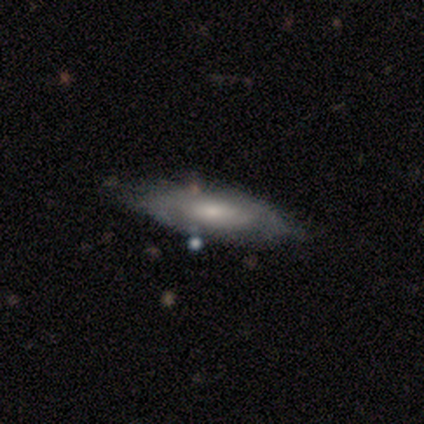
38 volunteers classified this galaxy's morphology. Smooth or featured: featured or disk — 55% (smooth — 42%)
Edge-on disk: no — 67% (yes — 33%)
Bar: weak — 50% (tied with no — 50%)
Spiral arms: yes — 57% (no — 43%)
Spiral winding: tight — 62% (medium — 38%)
Spiral arm count: can't tell — 75% (2 — 25%)
Bulge size: small — 57% (moderate — 36%)
Merging: none — 51% (minor disturbance — 8%)